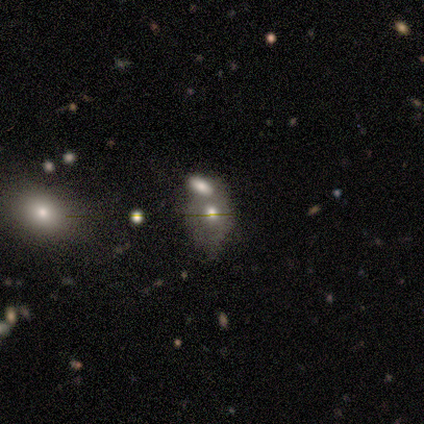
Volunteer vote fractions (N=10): This appears to be a smooth galaxy with no disk features (50%) that is in between round and cigar-shaped (80%). Merging: none (38%, tied with merger).